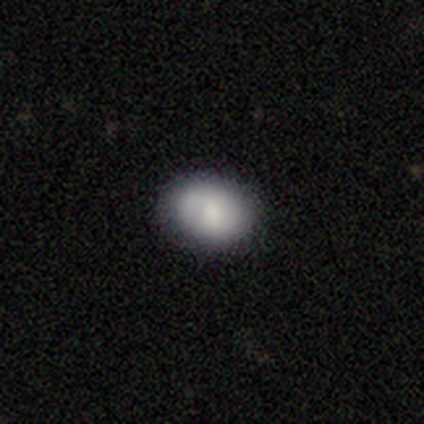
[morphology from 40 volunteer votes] Q: Smooth or featured?
A: smooth (85%); runner-up: featured or disk (12%)
Q: How rounded?
A: in between (65%); runner-up: round (35%)
Q: Merging?
A: none (77%); runner-up: minor disturbance (21%)